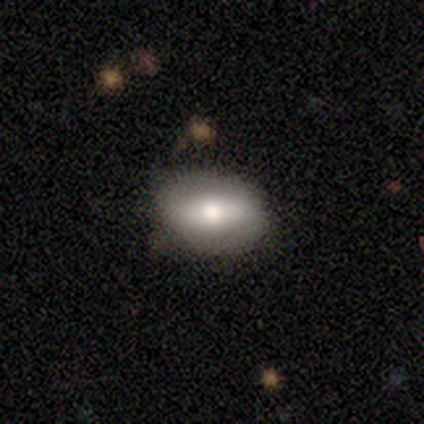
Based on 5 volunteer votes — A smooth galaxy with no disk features (60%) that is in between round and cigar-shaped (67%).

Vote fractions:
- Smooth or featured? smooth: 60% / featured or disk: 40% / star or artifact: 0%
- How rounded? in between: 67% / cigar-shaped: 33% / round: 0%
- Merging? none: 80% / minor disturbance: 20% / major disturbance: 0% / merger: 0%